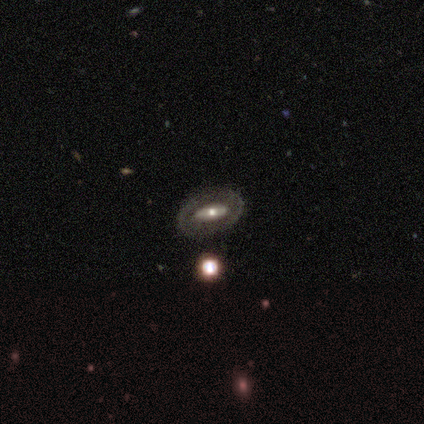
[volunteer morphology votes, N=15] type=smooth (47%, tied with featured or disk); roundness=in between (100%); merging=none (64%).